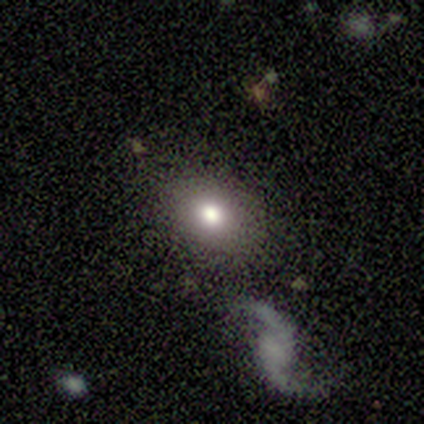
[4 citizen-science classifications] Volunteers were most divided on "how rounded": in between: 67%, round: 33%, cigar-shaped: 0%. More confident: merging — none (100%); smooth or featured — smooth (75%).